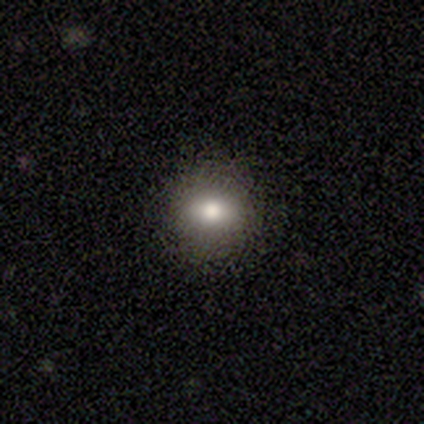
smooth 70%, featured or disk 18%, star or artifact 12%. Down the decision tree: how rounded — round (79%); merging — none (71%).